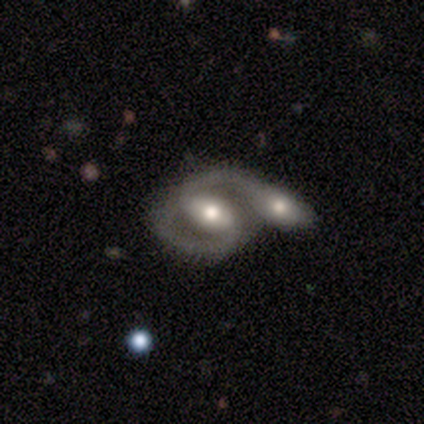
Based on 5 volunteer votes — Morphology: type=featured or disk (100%); edge-on=no (100%); bar=weak (40%, tied with no); spiral arms=yes (80%); winding=medium (75%); arm count=2 (75%); bulge=moderate (40%, tied with small); merging=none (40%, tied with merger).